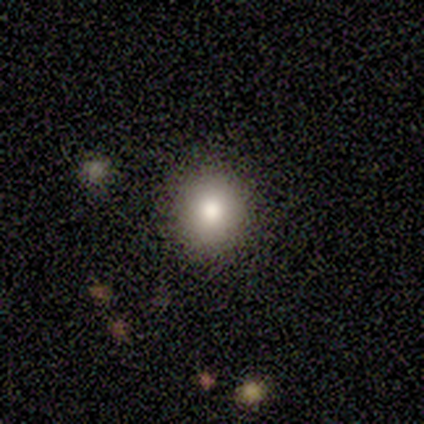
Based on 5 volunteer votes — Smooth or featured? featured or disk (60%)
Edge-on disk? no (100%)
Bar? no (100%)
Spiral arms? no (100%)
Bulge size? moderate (67%)
Merging? none (100%)